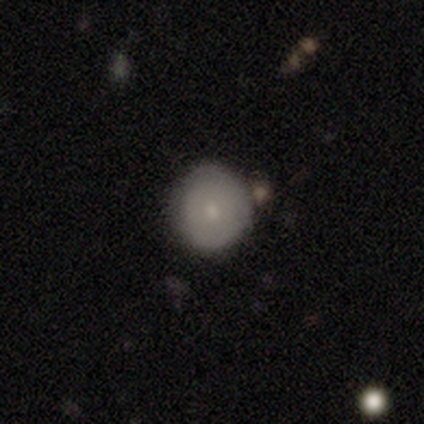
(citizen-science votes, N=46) Morphology: type=smooth (78%); roundness=round (94%); merging=none (74%).